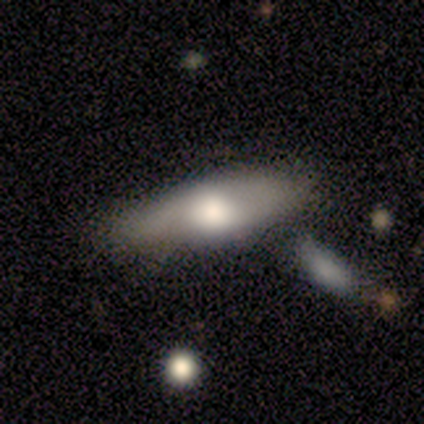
Smooth or featured?
  - smooth: 80% *
  - featured or disk: 20%
  - star or artifact: 0%
How rounded?
  - in between: 75% *
  - cigar-shaped: 25%
  - round: 0%
Merging?
  - none: 60% *
  - minor disturbance: 20%
  - merger: 20%
  - major disturbance: 0%